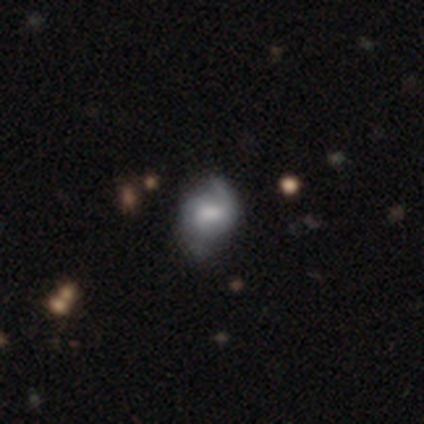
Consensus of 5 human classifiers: featured or disk 60%, smooth 40%, star or artifact 0%. Down the decision tree: edge-on disk — no (100%); bar — no (67%); spiral arms — yes (67%); spiral arm count — 2 (50%, tied with can't tell); spiral winding — tight (50%, tied with medium); bulge size — large (33%, tied with small and none); merging — minor disturbance (60%).